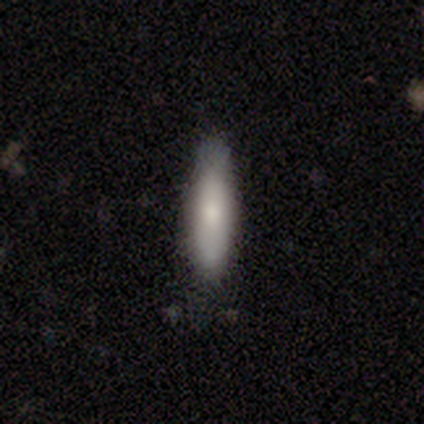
A smooth galaxy with no disk features (85%) that is cigar-shaped (73%).

Vote fractions:
- Smooth or featured? smooth: 85% / featured or disk: 13% / star or artifact: 3%
- How rounded? cigar-shaped: 73% / in between: 24% / round: 3%
- Merging? none: 79% / minor disturbance: 16% / major disturbance: 3% / merger: 3%